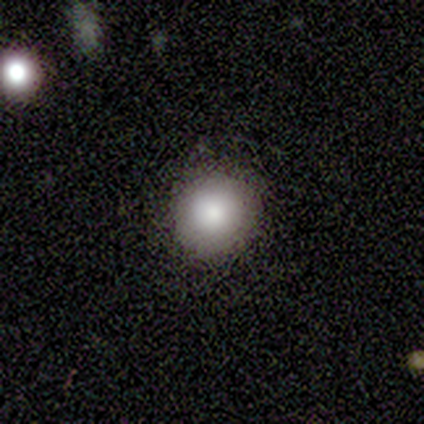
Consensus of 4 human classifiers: A smooth galaxy with no disk features (100%) that is round (100%). Merging: none (100%).